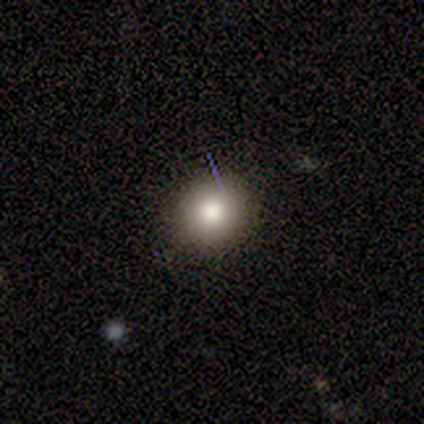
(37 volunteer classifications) smooth-or-featured: smooth: 73% | featured or disk: 14% | star or artifact: 14%
  how-rounded: round: 81% | in between: 19% | cigar-shaped: 0%
  merging: none: 84% | minor disturbance: 9% | major disturbance: 3% | merger: 3%